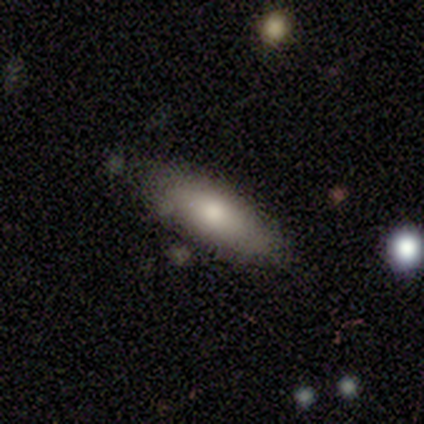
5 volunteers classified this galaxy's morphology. Volunteers were most divided on "smooth or featured": smooth: 60%, featured or disk: 40%, star or artifact: 0%. More confident: merging — none (100%); how rounded — in between (67%).